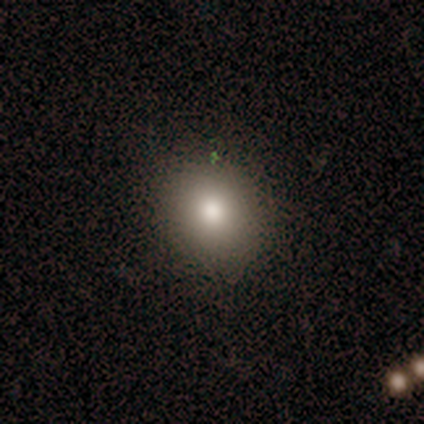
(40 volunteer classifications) smooth 85%, star or artifact 10%, featured or disk 5%. Down the decision tree: how rounded — round (91%); merging — none (97%).